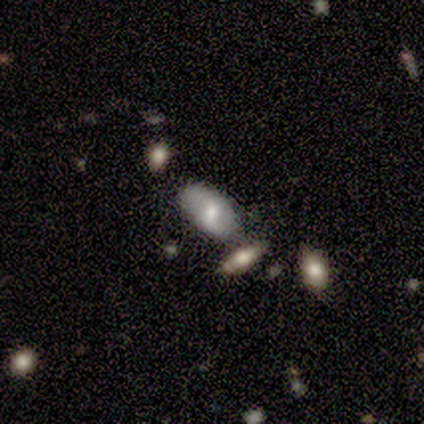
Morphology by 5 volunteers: A smooth galaxy with no disk features (60%) that is in between round and cigar-shaped (100%). Merging: none (60%).